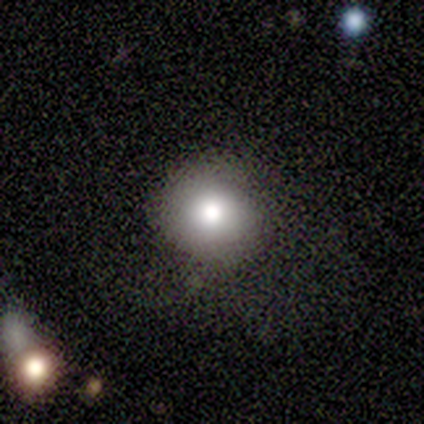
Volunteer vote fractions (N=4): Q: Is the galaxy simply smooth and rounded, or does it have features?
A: smooth — 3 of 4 (75%).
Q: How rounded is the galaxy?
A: round — 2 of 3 (67%).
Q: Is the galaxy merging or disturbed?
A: none — 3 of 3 (100%).